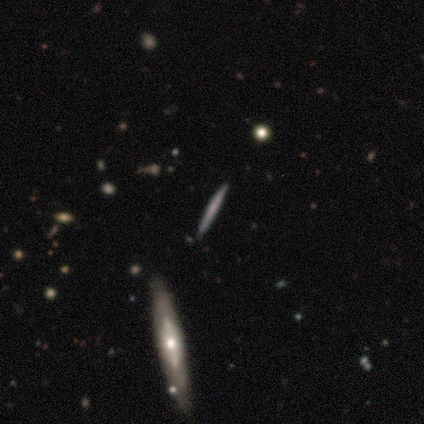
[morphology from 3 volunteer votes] Consensus on every question: smooth or featured — smooth (100%); how rounded — cigar-shaped (100%); merging — none (100%).